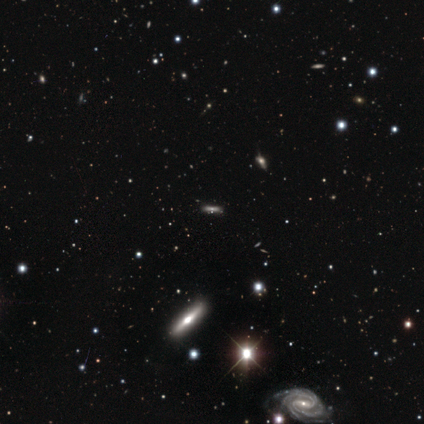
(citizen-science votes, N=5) Volunteers were most divided on "smooth or featured" (2-way tie): smooth: 40%, star or artifact: 40%, featured or disk: 20%; "how rounded" (2-way tie): in between: 50%, cigar-shaped: 50%, round: 0%. More confident: merging — none (67%).